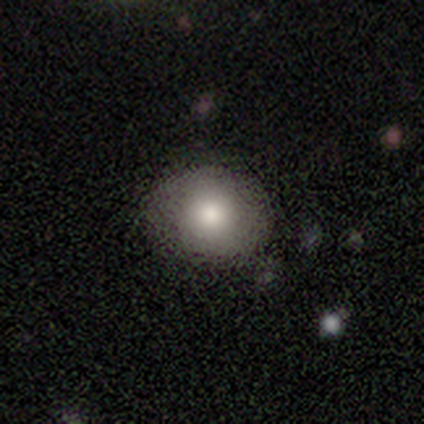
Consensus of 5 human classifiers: Overall: smooth (100%). How rounded: round (60%; in between 40%). Merging: none (100%).